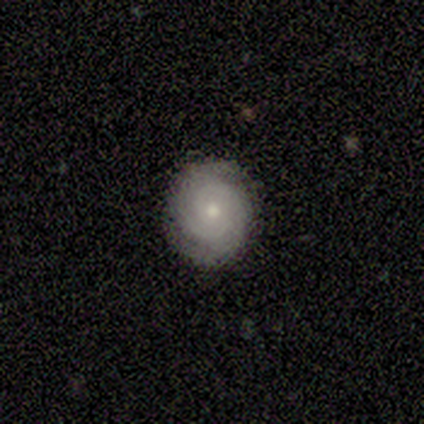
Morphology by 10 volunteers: Smooth or featured?
  - featured or disk: 70% *
  - smooth: 30%
  - star or artifact: 0%
Edge-on disk?
  - no: 100% *
  - yes: 0%
Bar?
  - no: 71% *
  - weak: 29%
  - strong: 0%
Spiral arms?
  - yes: 86% *
  - no: 14%
Spiral winding?
  - tight: 100% *
  - medium: 0%
  - loose: 0%
Spiral arm count?
  - 2: 67% *
  - 3: 17%
  - can't tell: 17%
  - 1: 0%
  - 4: 0%
  - more than 4: 0%
Bulge size?
  - moderate: 71% *
  - small: 29%
  - dominant: 0%
  - large: 0%
  - none: 0%
Merging?
  - none: 100% *
  - minor disturbance: 0%
  - major disturbance: 0%
  - merger: 0%